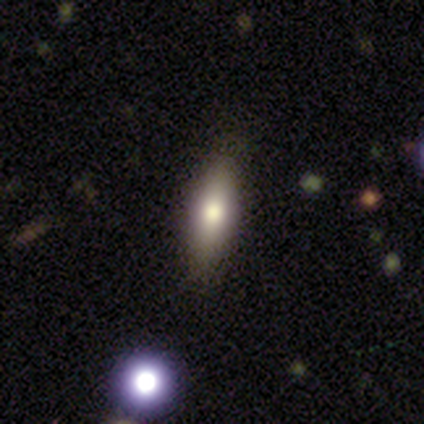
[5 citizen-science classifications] featured or disk 60%, smooth 40%, star or artifact 0%. Down the decision tree: edge-on disk — yes (67%); edge-on bulge — none (50%, tied with rounded); merging — none (100%).